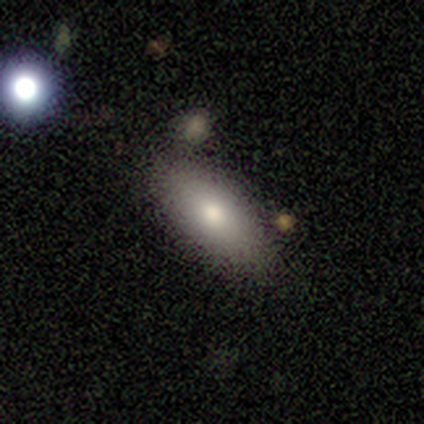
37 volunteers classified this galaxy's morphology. type=smooth (70%); roundness=in between (81%); merging=none (83%).